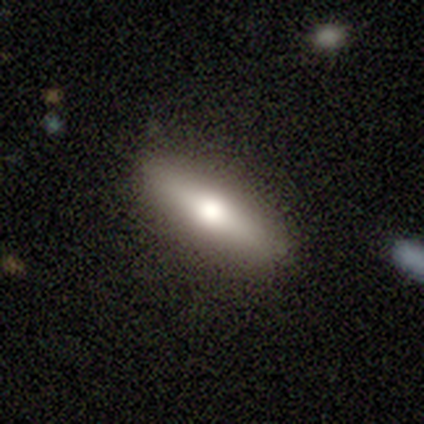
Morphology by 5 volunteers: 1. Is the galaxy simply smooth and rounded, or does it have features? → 60% smooth, 40% featured or disk, 0% star or artifact.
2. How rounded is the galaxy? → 67% cigar-shaped, 33% in between, 0% round.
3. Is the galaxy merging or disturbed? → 60% none, 40% minor disturbance, 0% major disturbance, 0% merger.